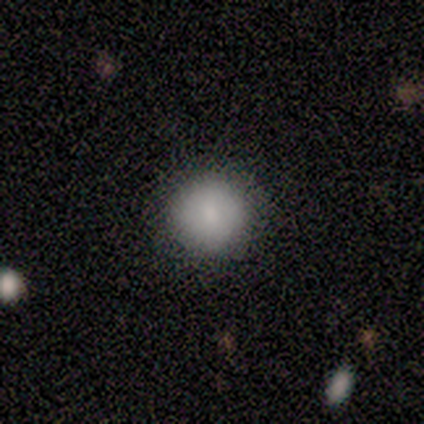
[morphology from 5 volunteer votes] This appears to be a smooth galaxy with no disk features (80%) that is round (100%). Merging: none (100%).